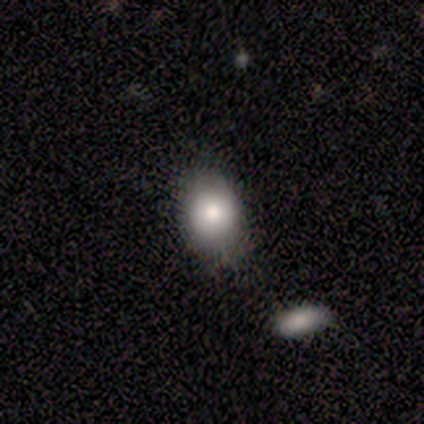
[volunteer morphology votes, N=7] smooth 71%, featured or disk 14%, star or artifact 14%. Down the decision tree: how rounded — in between (100%); merging — none (67%).